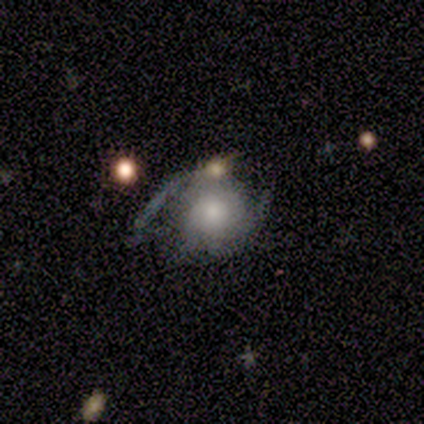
Smooth or featured? 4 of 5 (80%) said featured or disk. Edge-on disk? 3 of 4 (75%) said no. Bar? 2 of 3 (67%) said weak. Spiral arms? 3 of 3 (100%) said yes. Spiral winding? 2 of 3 (67%) said loose. Spiral arm count? 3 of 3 (100%) said 2. Bulge size? 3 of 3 (100%) said moderate. Merging? 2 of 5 (40%, tied with minor disturbance) said none.